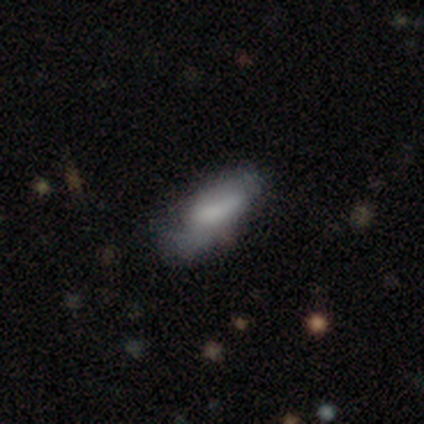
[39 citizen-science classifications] smooth_or_featured: smooth (p=0.62) [alt: featured or disk p=0.26]
how_rounded: in between (p=0.75) [alt: cigar-shaped p=0.25]
merging: minor disturbance (p=0.38) [alt: none p=0.35]